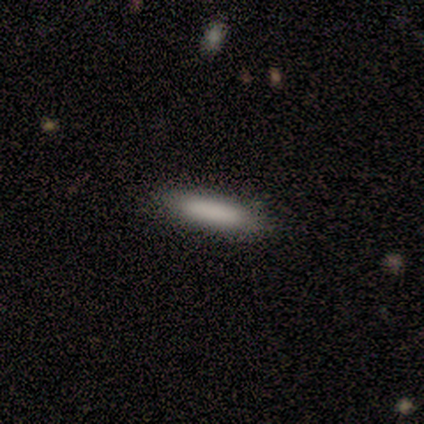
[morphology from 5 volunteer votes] type=smooth (100%); roundness=in between (60%); merging=none (100%).